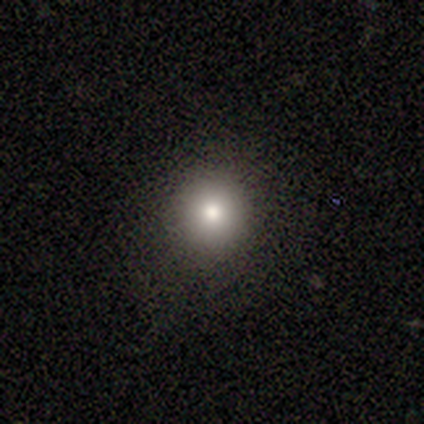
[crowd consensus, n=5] Morphology: type=smooth (100%); roundness=round (80%); merging=none (80%).